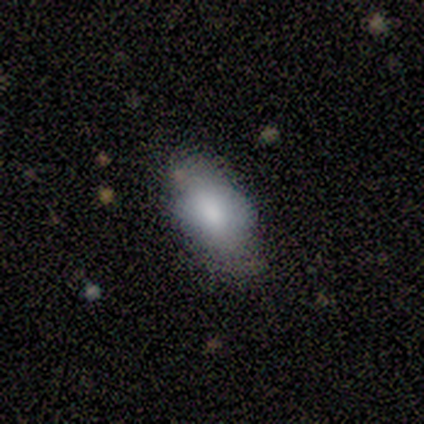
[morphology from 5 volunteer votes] smooth-or-featured: smooth: 80% | featured or disk: 20% | star or artifact: 0%
  how-rounded: in between: 75% | round: 25% | cigar-shaped: 0%
  merging: none: 80% | major disturbance: 20% | minor disturbance: 0% | merger: 0%